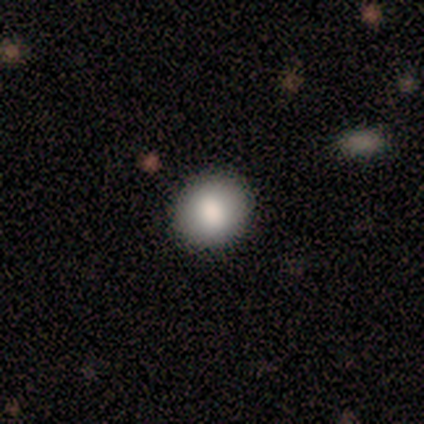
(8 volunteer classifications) A smooth galaxy with no disk features (75%) that is round (100%). Merging: none (100%).